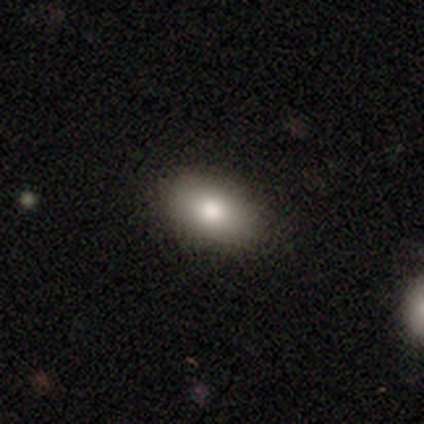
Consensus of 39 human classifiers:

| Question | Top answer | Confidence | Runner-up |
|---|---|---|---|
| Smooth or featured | smooth | 85% | featured or disk (10%) |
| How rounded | in between | 91% | round (6%) |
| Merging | none | 86% | minor disturbance (11%) |